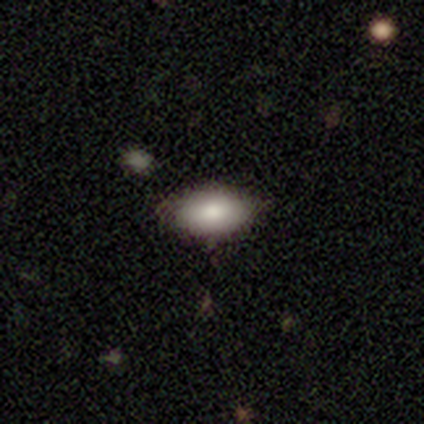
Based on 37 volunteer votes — smooth 89%, featured or disk 5%, star or artifact 5%. Down the decision tree: how rounded — in between (97%); merging — none (83%).